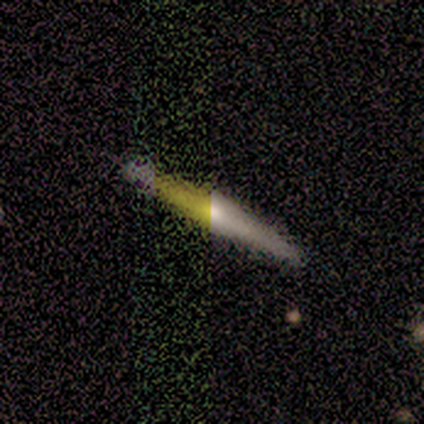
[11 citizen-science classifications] smooth-or-featured: featured or disk: 55% | smooth: 27% | star or artifact: 18%
  disk-edge-on: yes: 100% | no: 0%
    edge-on-bulge: rounded: 100% | boxy: 0% | none: 0%
  merging: none: 100% | minor disturbance: 0% | major disturbance: 0% | merger: 0%